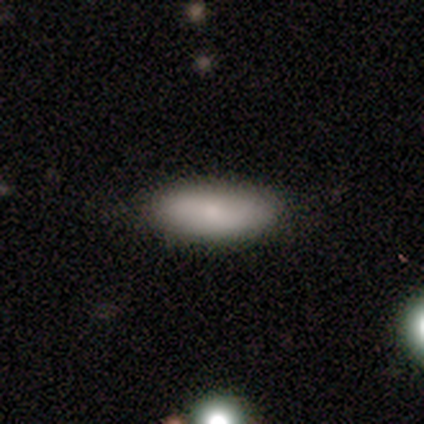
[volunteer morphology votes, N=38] Overall: smooth (79%). How rounded: in between (60%; cigar-shaped 40%). Merging: none (83%).